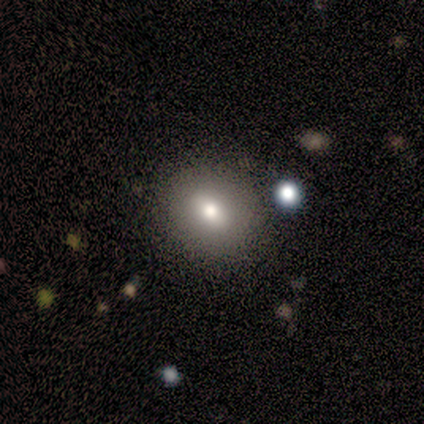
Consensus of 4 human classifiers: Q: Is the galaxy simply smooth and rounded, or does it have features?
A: smooth — 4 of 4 (100%).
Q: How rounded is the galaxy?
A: in between — 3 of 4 (75%).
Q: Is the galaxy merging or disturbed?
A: none — 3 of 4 (75%).